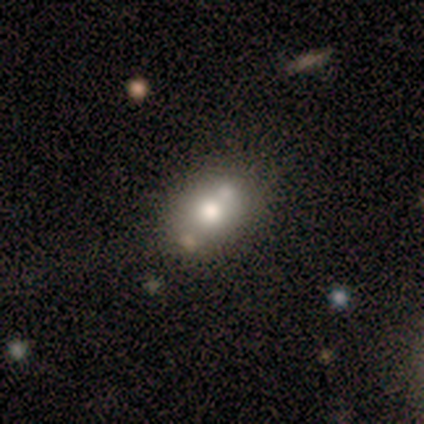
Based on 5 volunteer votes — Q: Smooth or featured?
A: smooth (40%); tied with: featured or disk (40%)
Q: How rounded?
A: in between (100%)
Q: Merging?
A: none (75%); runner-up: merger (25%)